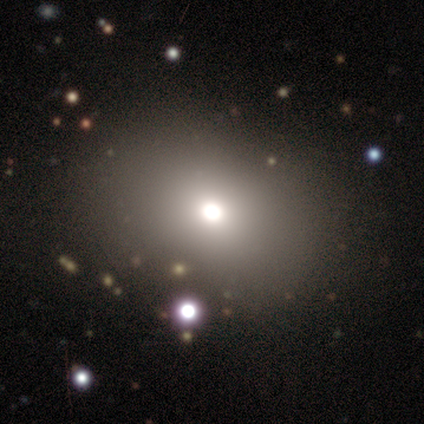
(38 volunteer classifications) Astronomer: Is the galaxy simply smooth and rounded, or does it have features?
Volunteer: smooth — 66%.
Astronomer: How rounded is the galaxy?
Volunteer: in between — 60% (runner-up: round, 40%).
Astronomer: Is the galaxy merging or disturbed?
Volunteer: none — 77%.